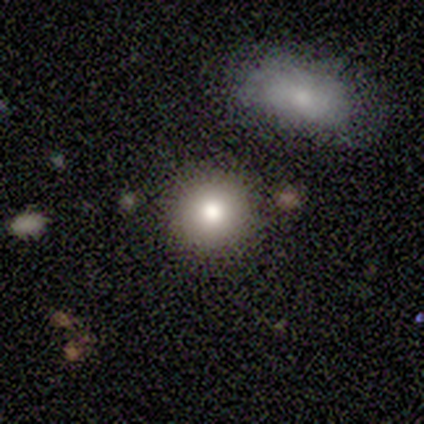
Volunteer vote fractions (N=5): smooth_or_featured: smooth (p=0.80) [alt: star or artifact p=0.20]
how_rounded: round (p=1.00)
merging: none (p=1.00)